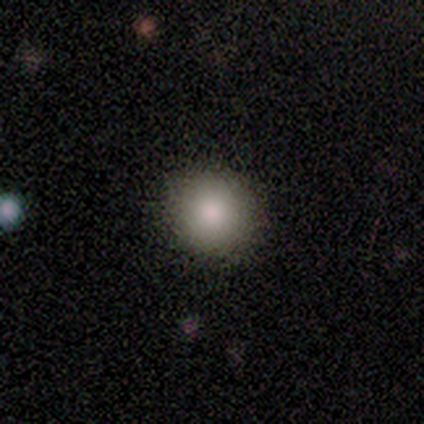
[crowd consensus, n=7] Q: Smooth or featured?
A: smooth (100%)
Q: How rounded?
A: round (86%); runner-up: in between (14%)
Q: Merging?
A: none (86%); runner-up: minor disturbance (14%)